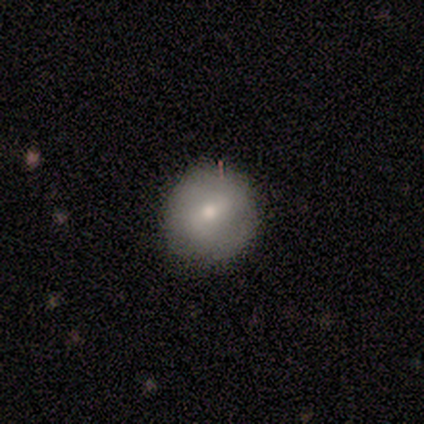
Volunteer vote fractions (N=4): smooth-or-featured: smooth: 50% | featured or disk: 25% | star or artifact: 25%
  how-rounded: round: 100% | in between: 0% | cigar-shaped: 0%
  merging: none: 100% | minor disturbance: 0% | major disturbance: 0% | merger: 0%